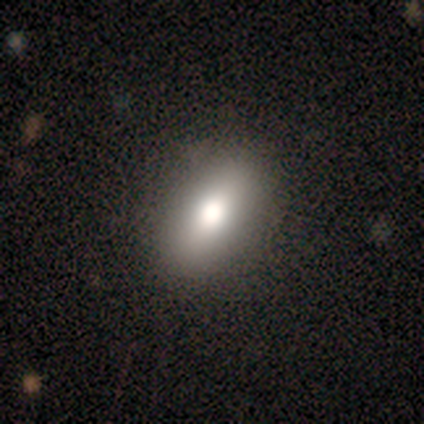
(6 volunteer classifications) smooth 50%, star or artifact 33%, featured or disk 17%. Down the decision tree: how rounded — in between (100%); merging — none (100%).